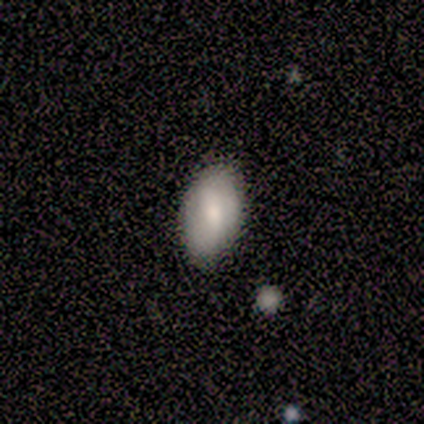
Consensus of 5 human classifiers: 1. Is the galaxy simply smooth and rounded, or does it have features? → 60% smooth, 20% featured or disk, 20% star or artifact.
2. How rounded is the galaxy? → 100% in between, 0% round, 0% cigar-shaped.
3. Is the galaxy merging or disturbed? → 75% none, 25% minor disturbance, 0% major disturbance, 0% merger.